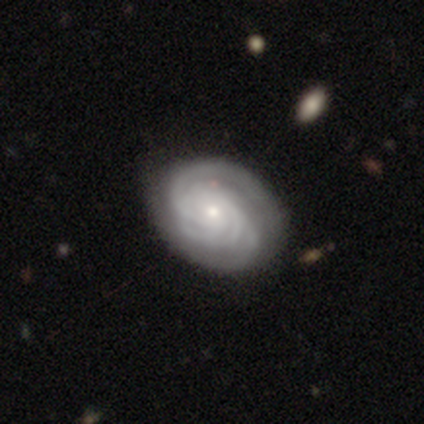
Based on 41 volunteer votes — Q: Smooth or featured?
A: featured or disk (88%); runner-up: smooth (10%)
Q: Edge-on disk?
A: no (97%); runner-up: yes (3%)
Q: Bar?
A: no (80%); runner-up: weak (20%)
Q: Spiral arms?
A: yes (97%); runner-up: no (3%)
Q: Spiral winding?
A: tight (74%); runner-up: medium (26%)
Q: Spiral arm count?
A: 3 (35%); tied with: can't tell (35%)
Q: Bulge size?
A: small (66%); runner-up: moderate (29%)
Q: Merging?
A: none (68%); runner-up: merger (8%)